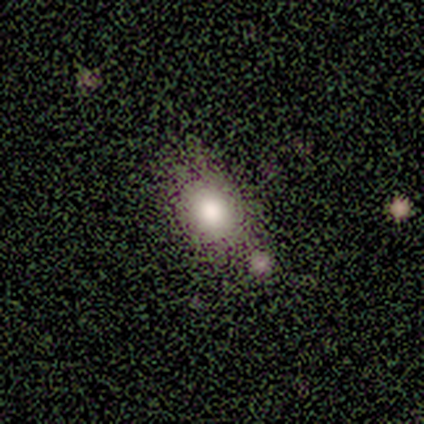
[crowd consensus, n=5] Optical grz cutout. It shows a smooth galaxy with no disk features (60%) that is in between round and cigar-shaped (100%). Merging: none (33%, tied with major disturbance and merger).